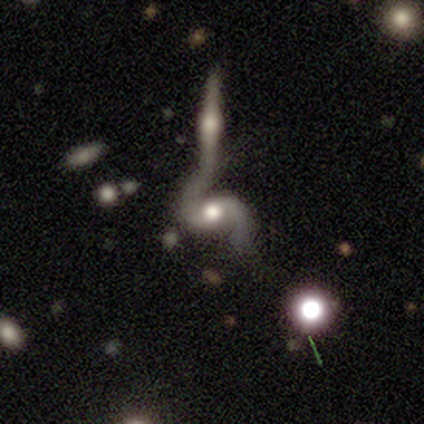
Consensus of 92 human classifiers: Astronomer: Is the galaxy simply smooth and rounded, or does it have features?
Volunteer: featured or disk — 89%.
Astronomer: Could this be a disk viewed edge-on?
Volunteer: no — 96%.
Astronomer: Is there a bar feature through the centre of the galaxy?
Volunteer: weak — 49% (runner-up: no, 37%).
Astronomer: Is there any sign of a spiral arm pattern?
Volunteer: yes — 90%.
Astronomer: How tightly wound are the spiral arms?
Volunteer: loose — 58% (runner-up: medium, 38%).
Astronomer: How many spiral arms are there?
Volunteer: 2 — 90%.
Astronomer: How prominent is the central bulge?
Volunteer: moderate — 66%.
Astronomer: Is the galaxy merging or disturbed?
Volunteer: merger — 67%.